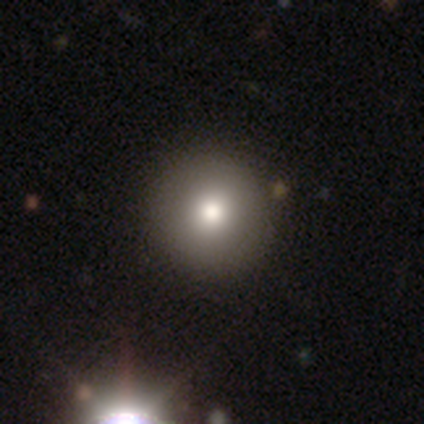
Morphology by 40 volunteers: smooth 80%, star or artifact 12%, featured or disk 8%. Down the decision tree: how rounded — round (97%); merging — none (57%).